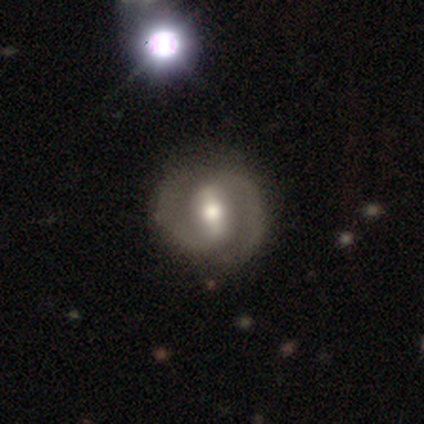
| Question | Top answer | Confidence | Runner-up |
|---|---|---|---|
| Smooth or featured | featured or disk | 86% | smooth (14%) |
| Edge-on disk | no | 100% | — |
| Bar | strong | 67% | weak (33%) |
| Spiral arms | yes | 100% | — |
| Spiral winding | tight | 50% | tied: medium (50%) |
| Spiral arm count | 2 | 100% | — |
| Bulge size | moderate | 67% | small (33%) |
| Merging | none | 71% | minor disturbance (14%) |